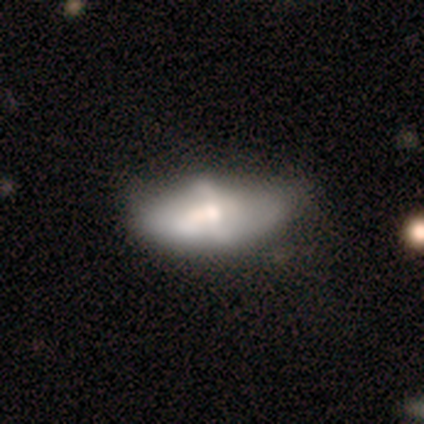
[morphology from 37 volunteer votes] smooth 54%, featured or disk 46%, star or artifact 0%. Down the decision tree: how rounded — in between (90%); merging — none (38%).